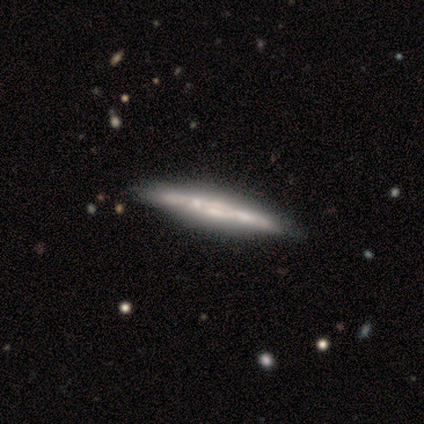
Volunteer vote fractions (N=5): smooth_or_featured: featured or disk (p=1.00)
disk_edge_on: yes (p=1.00)
edge_on_bulge: none (p=0.60) [alt: boxy p=0.20]
merging: none (p=0.60) [alt: minor disturbance p=0.20]